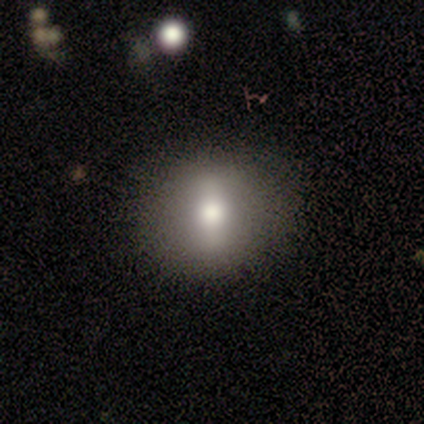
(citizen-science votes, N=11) smooth 64%, featured or disk 27%, star or artifact 9%. Down the decision tree: how rounded — round (57%); merging — none (100%).